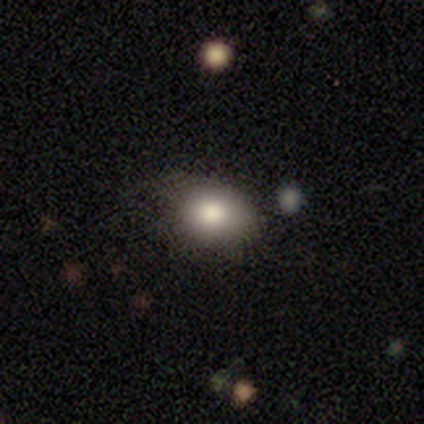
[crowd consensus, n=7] Q: Smooth or featured?
A: smooth (86%); runner-up: star or artifact (14%)
Q: How rounded?
A: in between (67%); runner-up: round (33%)
Q: Merging?
A: none (50%); tied with: minor disturbance (50%)